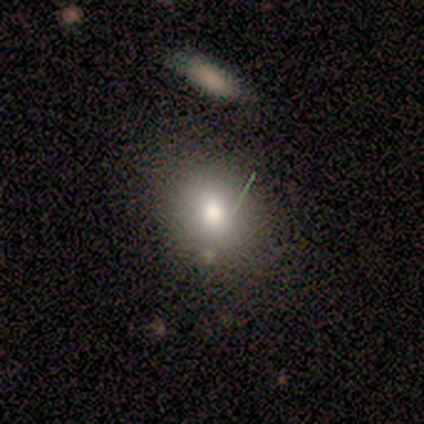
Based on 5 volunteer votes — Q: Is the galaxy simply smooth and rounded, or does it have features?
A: smooth — 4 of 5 (80%).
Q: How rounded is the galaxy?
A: round — 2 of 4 (50%, tied with in between).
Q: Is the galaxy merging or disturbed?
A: none — 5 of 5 (100%).